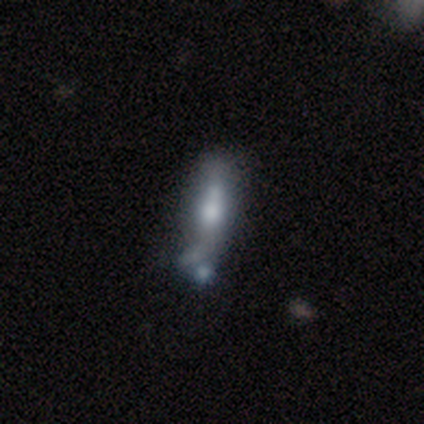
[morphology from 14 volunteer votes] Smooth or featured?
  - smooth: 43% * (tied)
  - featured or disk: 43% * (tied)
  - star or artifact: 14%
How rounded?
  - cigar-shaped: 100% *
  - round: 0%
  - in between: 0%
Merging?
  - minor disturbance: 50% *
  - merger: 25%
  - none: 17%
  - major disturbance: 8%